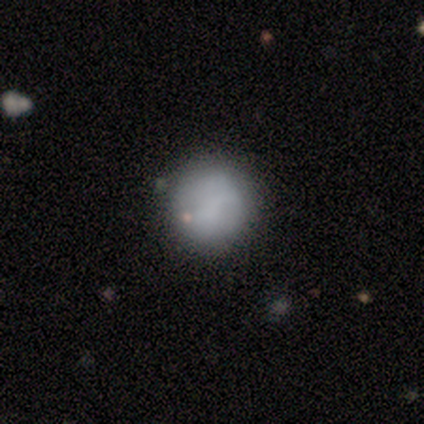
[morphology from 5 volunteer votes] This appears to be a smooth galaxy with no disk features (80%) that is round (100%). Merging: none (100%).